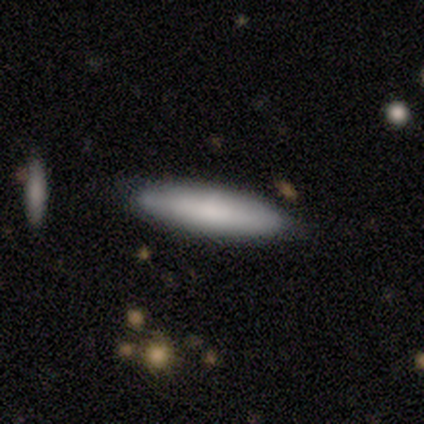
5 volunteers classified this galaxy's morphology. type=smooth (100%); roundness=cigar-shaped (80%); merging=none (100%).